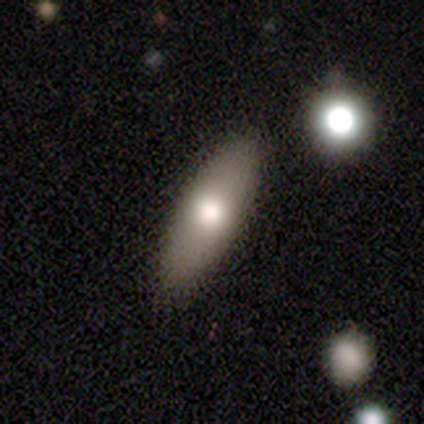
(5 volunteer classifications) Morphology: type=smooth (60%); roundness=cigar-shaped (67%); merging=none (60%).